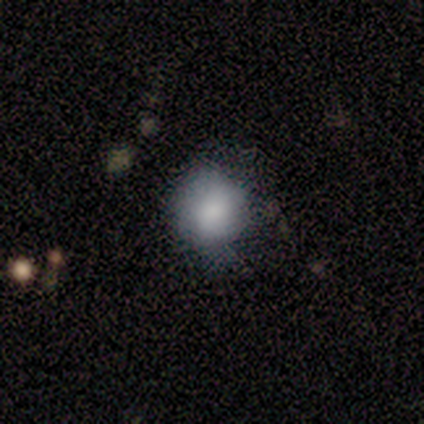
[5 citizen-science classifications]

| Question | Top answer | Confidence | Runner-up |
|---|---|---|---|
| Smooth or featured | smooth | 100% | — |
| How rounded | round | 60% | in between (40%) |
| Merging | minor disturbance | 60% | none (40%) |